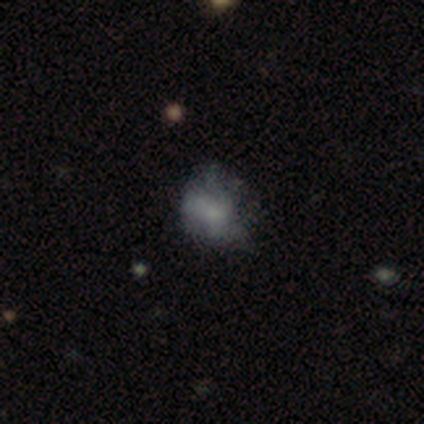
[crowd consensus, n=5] Morphology: type=featured or disk (100%); edge-on=no (100%); bar=no (80%); spiral arms=no (60%); bulge=small (40%, tied with none); merging=major disturbance (80%).